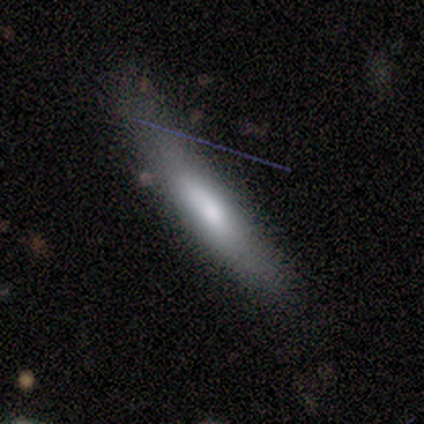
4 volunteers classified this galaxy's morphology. Smooth or featured: smooth — 50% (tied with featured or disk — 50%)
How rounded: cigar-shaped — 100%
Merging: none — 25% (tied with minor disturbance — 25%; major disturbance — 25%; merger — 25%)